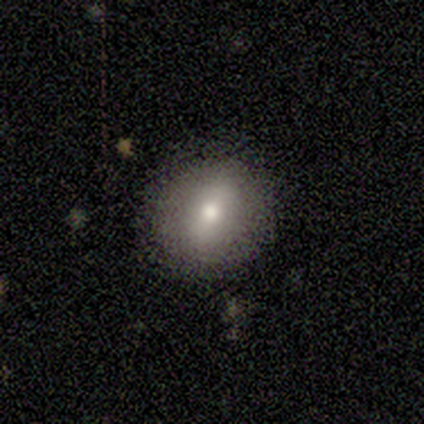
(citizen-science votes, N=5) A smooth galaxy with no disk features (80%) that is round (50%, tied with in between). Merging: none (100%).